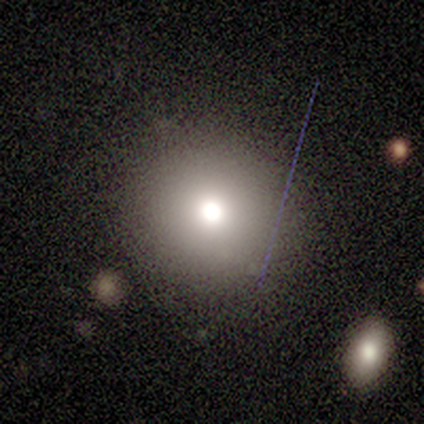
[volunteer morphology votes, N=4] Smooth or featured? 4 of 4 (100%) said smooth. How rounded? 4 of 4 (100%) said round. Merging? 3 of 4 (75%) said none.